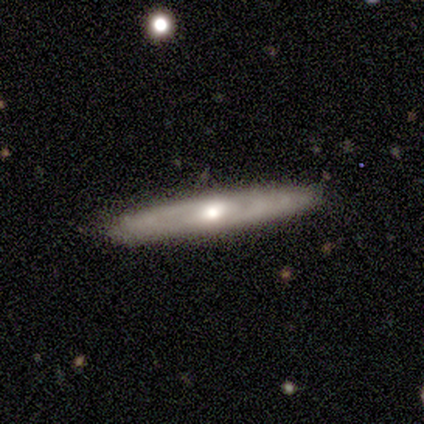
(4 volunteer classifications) Smooth or featured?
  - smooth: 50% * (tied)
  - featured or disk: 50% * (tied)
  - star or artifact: 0%
How rounded?
  - cigar-shaped: 100% *
  - round: 0%
  - in between: 0%
Merging?
  - none: 50% *
  - minor disturbance: 25%
  - major disturbance: 25%
  - merger: 0%